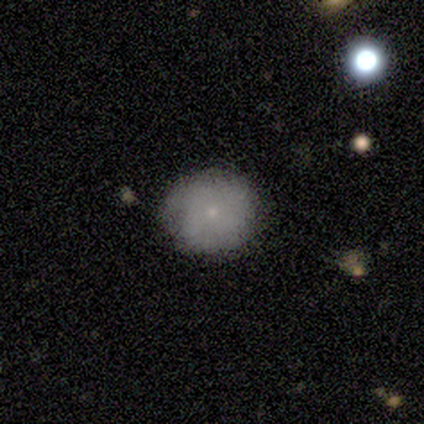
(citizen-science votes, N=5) A smooth galaxy with no disk features (100%) that is round (100%). Merging: none (80%).